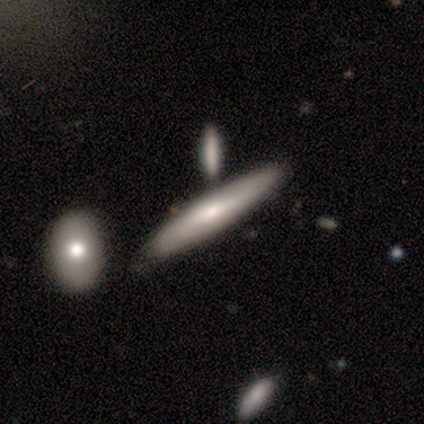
smooth-or-featured: featured or disk: 100% | smooth: 0% | star or artifact: 0%
  disk-edge-on: yes: 60% | no: 40%
    edge-on-bulge: rounded: 67% | boxy: 33% | none: 0%
  merging: none: 60% | minor disturbance: 40% | major disturbance: 0% | merger: 0%